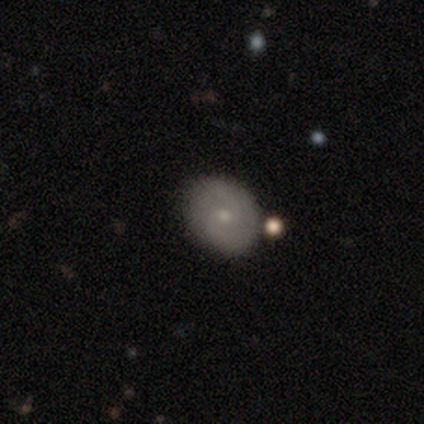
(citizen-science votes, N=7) This is clearly a featured or disk galaxy (86%). It is clearly not viewed edge-on (100%). Bar: likely no (67%). Spiral arm pattern: clearly yes (83%). Spiral arm count: likely 2 (60%). Spiral winding: marginally tight (40%, tied with medium). Central bulge: clearly small (83%). Merging: clearly none (83%).